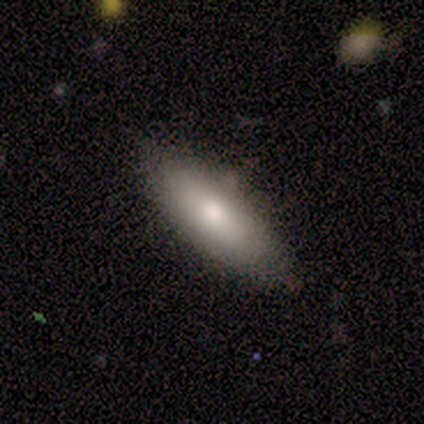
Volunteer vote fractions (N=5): smooth-or-featured: smooth: 60% | featured or disk: 40% | star or artifact: 0%
  how-rounded: in between: 67% | cigar-shaped: 33% | round: 0%
  merging: none: 80% | minor disturbance: 20% | major disturbance: 0% | merger: 0%